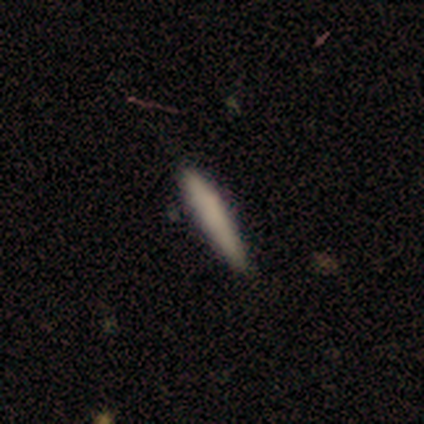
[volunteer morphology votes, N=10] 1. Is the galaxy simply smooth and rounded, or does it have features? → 90% smooth, 10% featured or disk, 0% star or artifact.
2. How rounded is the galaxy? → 89% cigar-shaped, 11% in between, 0% round.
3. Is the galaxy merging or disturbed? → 80% none, 20% minor disturbance, 0% major disturbance, 0% merger.